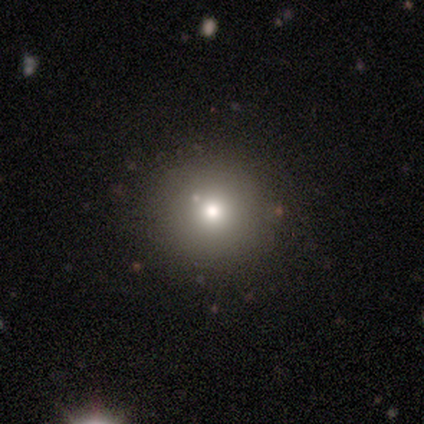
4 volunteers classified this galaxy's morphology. This is possibly a smooth galaxy (50%). How rounded: clearly round (100%). Merging: likely none (67%).